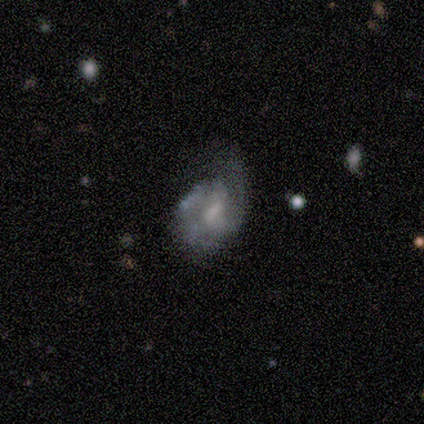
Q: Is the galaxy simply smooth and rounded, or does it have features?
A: featured or disk — 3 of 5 (60%).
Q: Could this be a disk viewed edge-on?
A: no — 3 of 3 (100%).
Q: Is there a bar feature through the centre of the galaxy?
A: weak — 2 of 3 (67%).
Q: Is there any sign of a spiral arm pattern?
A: yes — 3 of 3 (100%).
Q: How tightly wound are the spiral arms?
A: medium — 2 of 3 (67%).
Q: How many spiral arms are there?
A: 2 — 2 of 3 (67%).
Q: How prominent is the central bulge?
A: none — 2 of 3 (67%).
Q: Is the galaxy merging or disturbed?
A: minor disturbance — 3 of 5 (60%).